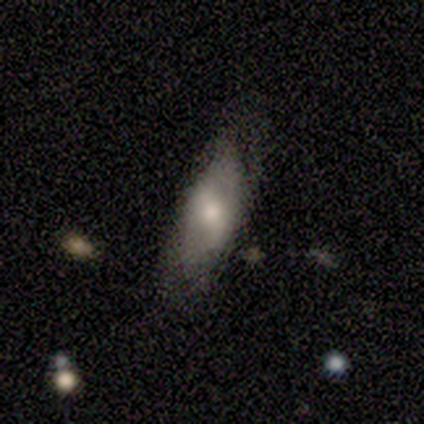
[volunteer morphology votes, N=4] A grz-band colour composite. It shows a smooth galaxy with no disk features (50%, tied with featured or disk) that is in between round and cigar-shaped (50%, tied with cigar-shaped). Merging: minor disturbance (50%).